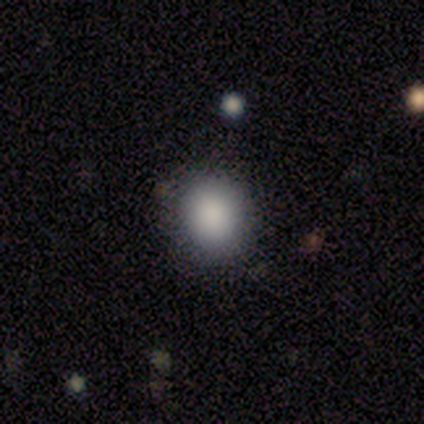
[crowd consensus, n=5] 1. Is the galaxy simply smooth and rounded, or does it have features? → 100% smooth, 0% featured or disk, 0% star or artifact.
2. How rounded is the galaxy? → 60% round, 40% in between, 0% cigar-shaped.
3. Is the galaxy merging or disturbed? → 100% none, 0% minor disturbance, 0% major disturbance, 0% merger.